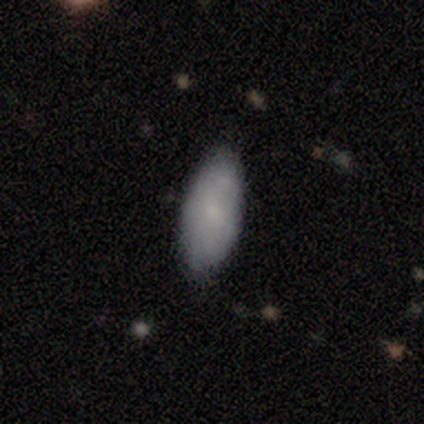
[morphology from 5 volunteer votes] smooth 60%, featured or disk 20%, star or artifact 20%. Down the decision tree: how rounded — in between (100%); merging — none (100%).